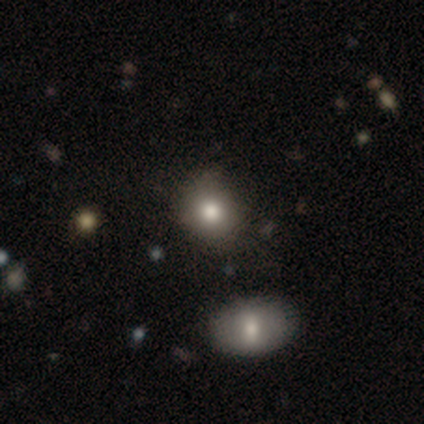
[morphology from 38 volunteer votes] Smooth or featured? smooth (84%)
How rounded? round (84%)
Merging? none (60%)